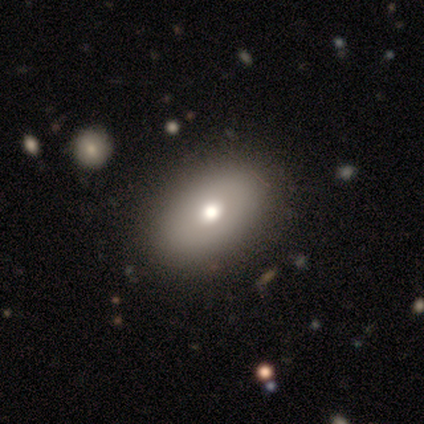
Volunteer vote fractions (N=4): This appears to be a smooth galaxy with no disk features (100%) that is in between round and cigar-shaped (100%). Merging: none (75%).